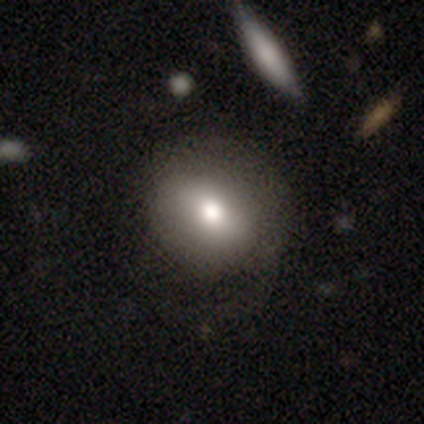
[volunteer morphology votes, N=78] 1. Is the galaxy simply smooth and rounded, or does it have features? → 79% smooth, 15% featured or disk, 5% star or artifact.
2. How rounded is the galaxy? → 61% round, 39% in between, 0% cigar-shaped.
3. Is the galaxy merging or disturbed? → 36% none, 14% minor disturbance, 7% major disturbance, 5% merger.